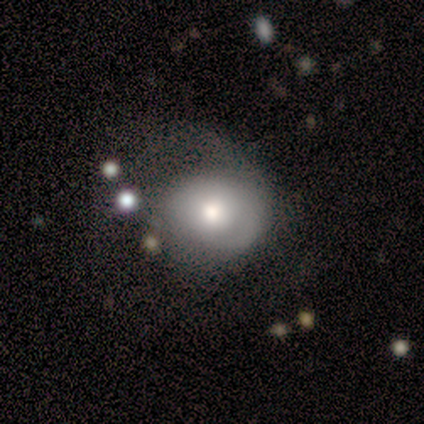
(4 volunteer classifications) Morphology: type=star or artifact (75%).